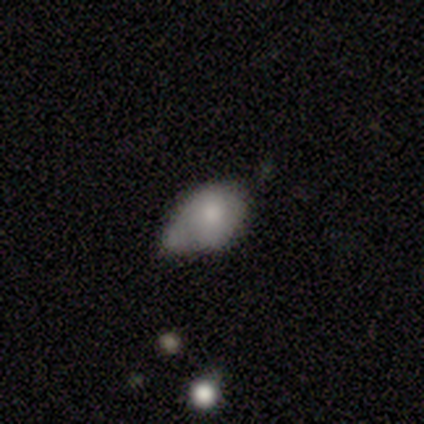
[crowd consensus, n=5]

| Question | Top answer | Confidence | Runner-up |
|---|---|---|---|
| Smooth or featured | smooth | 80% | featured or disk (20%) |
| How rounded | in between | 75% | round (25%) |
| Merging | minor disturbance | 40% | tied: major disturbance (40%) |